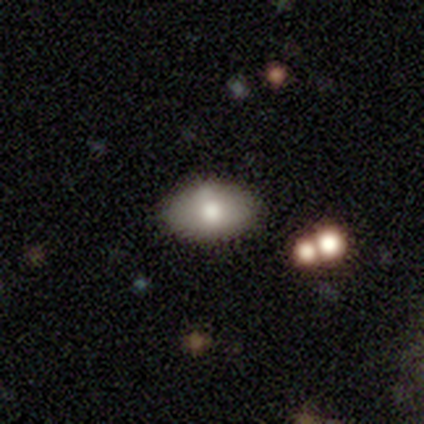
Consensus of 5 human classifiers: Smooth or featured? smooth (60%)
How rounded? in between (100%)
Merging? none (60%)